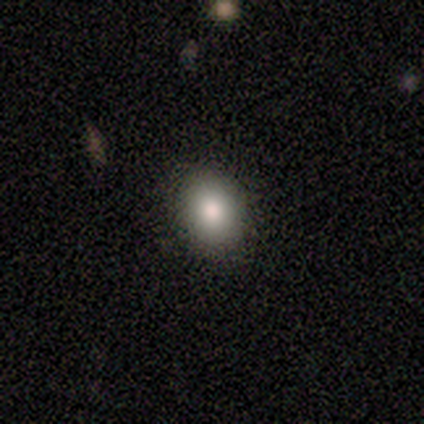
smooth-or-featured: smooth: 80% | star or artifact: 20% | featured or disk: 0%
  how-rounded: in between: 75% | round: 25% | cigar-shaped: 0%
  merging: none: 75% | minor disturbance: 25% | major disturbance: 0% | merger: 0%